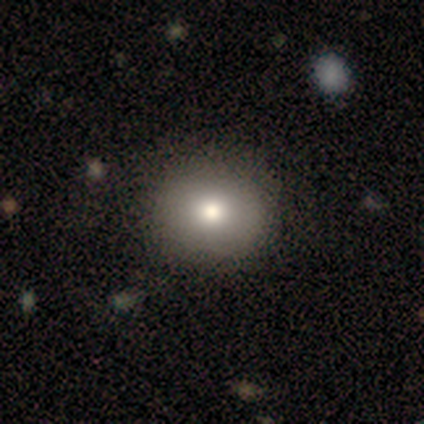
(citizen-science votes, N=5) smooth 80%, star or artifact 20%, featured or disk 0%. Down the decision tree: how rounded — round (75%); merging — none (100%).